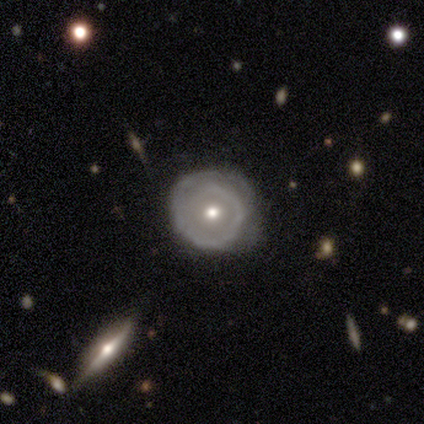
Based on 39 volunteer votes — Morphology: type=featured or disk (74%); edge-on=no (97%); bar=no (86%); spiral arms=yes (71%); winding=tight (75%); arm count=1 (50%); bulge=moderate (61%); merging=none (81%).